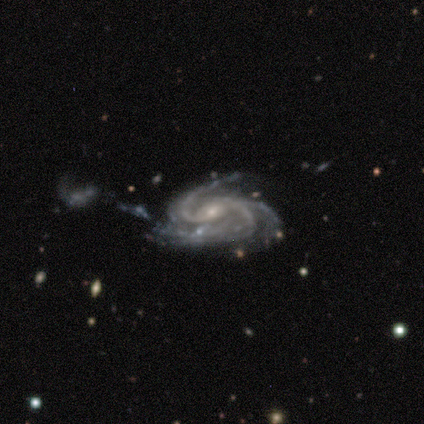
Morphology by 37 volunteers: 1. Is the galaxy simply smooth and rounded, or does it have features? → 100% featured or disk, 0% smooth, 0% star or artifact.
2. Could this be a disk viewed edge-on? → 95% no, 5% yes.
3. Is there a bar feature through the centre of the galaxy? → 46% no, 43% weak, 11% strong.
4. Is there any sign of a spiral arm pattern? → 100% yes, 0% no.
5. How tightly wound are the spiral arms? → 60% medium, 31% tight, 9% loose.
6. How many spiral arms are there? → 74% 3, 14% 2, 6% 4, 3% more than 4, 3% can't tell, 0% 1.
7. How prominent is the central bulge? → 71% small, 29% moderate, 0% dominant, 0% large, 0% none.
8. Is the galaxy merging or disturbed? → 35% none, 32% minor disturbance, 19% major disturbance, 14% merger.